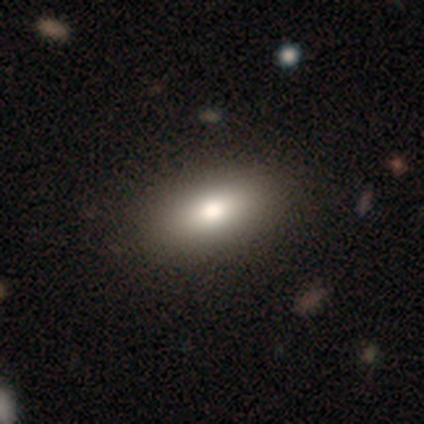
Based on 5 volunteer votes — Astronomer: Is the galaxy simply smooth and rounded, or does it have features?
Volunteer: smooth — 80%.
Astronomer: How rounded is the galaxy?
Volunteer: in between — 100%.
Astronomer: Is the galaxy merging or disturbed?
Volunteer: none — 100%.